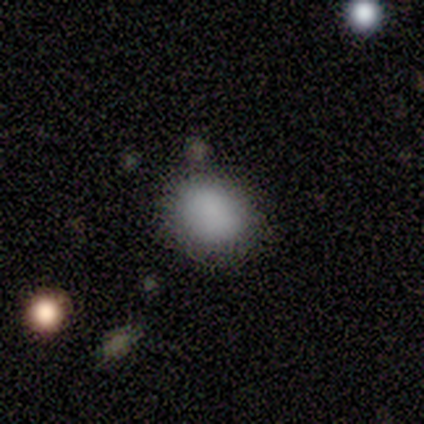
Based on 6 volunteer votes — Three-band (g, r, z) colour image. It shows a smooth galaxy with no disk features (100%) that is in between round and cigar-shaped (67%). Merging: none (67%).